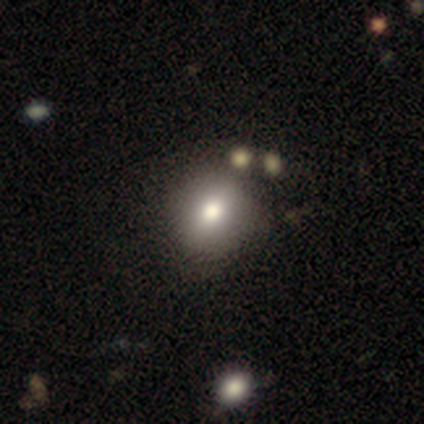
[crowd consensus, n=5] Smooth or featured: smooth — 60% (featured or disk — 40%)
How rounded: in between — 67% (round — 33%)
Merging: none — 80% (minor disturbance — 20%)